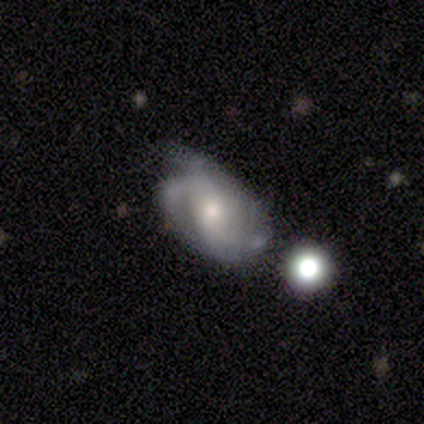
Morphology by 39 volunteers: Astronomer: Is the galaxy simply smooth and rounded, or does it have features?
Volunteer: featured or disk — 90%.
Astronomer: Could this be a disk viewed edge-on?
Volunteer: no — 100%.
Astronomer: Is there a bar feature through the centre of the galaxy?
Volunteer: no — 46% (runner-up: weak, 40%).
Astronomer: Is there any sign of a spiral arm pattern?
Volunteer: yes — 94%.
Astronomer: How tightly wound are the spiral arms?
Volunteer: medium — 58%.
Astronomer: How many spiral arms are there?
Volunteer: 2 — 58%.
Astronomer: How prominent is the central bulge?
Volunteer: moderate — 71%.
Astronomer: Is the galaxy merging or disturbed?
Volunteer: none — 45% (runner-up: minor disturbance, 34%).